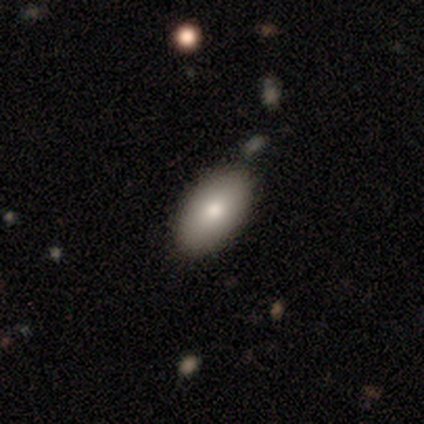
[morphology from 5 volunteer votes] A smooth galaxy with no disk features (60%) that is in between round and cigar-shaped (100%). Merging: none (60%).